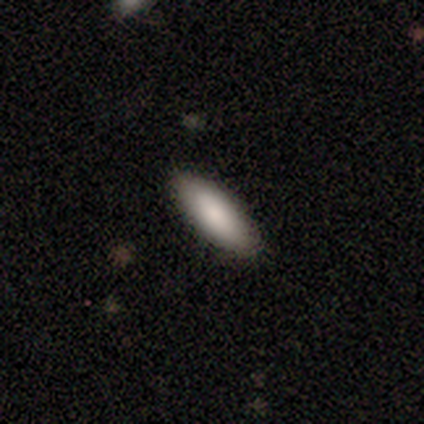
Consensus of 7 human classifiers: smooth-or-featured: smooth: 86% | star or artifact: 14% | featured or disk: 0%
  how-rounded: in between: 67% | cigar-shaped: 33% | round: 0%
  merging: none: 100% | minor disturbance: 0% | major disturbance: 0% | merger: 0%